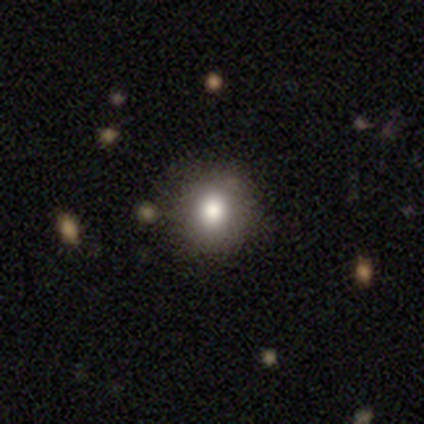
smooth_or_featured: smooth (p=0.83) [alt: star or artifact p=0.17]
how_rounded: round (p=1.00)
merging: none (p=0.80) [alt: minor disturbance p=0.20]